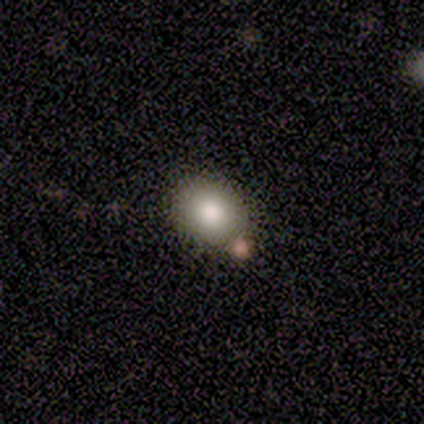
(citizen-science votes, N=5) Smooth or featured? 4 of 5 (80%) said smooth. How rounded? 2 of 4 (50%, tied with in between) said round. Merging? 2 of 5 (40%, tied with merger) said none.